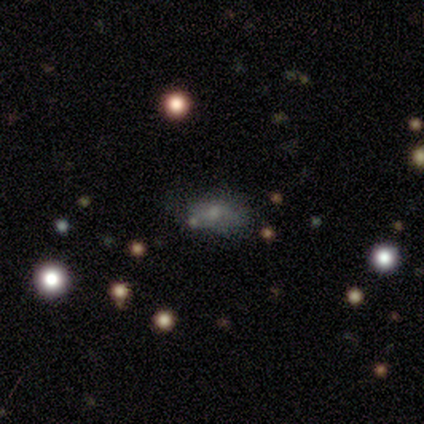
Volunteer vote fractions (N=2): Smooth or featured?
  - smooth: 100% *
  - featured or disk: 0%
  - star or artifact: 0%
How rounded?
  - in between: 100% *
  - round: 0%
  - cigar-shaped: 0%
Merging?
  - minor disturbance: 50% * (tied)
  - major disturbance: 50% * (tied)
  - none: 0%
  - merger: 0%